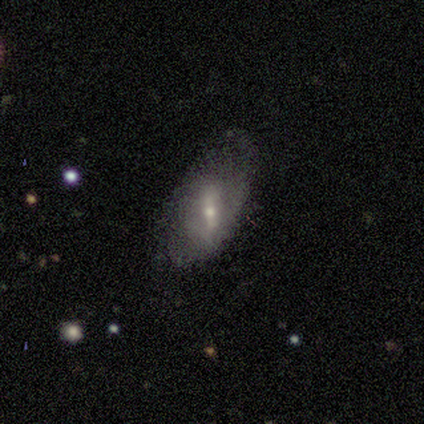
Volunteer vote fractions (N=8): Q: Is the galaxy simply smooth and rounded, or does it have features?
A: smooth — 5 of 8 (62%).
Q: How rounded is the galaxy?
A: in between — 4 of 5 (80%).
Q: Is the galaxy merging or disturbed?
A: none — 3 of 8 (38%, tied with minor disturbance).